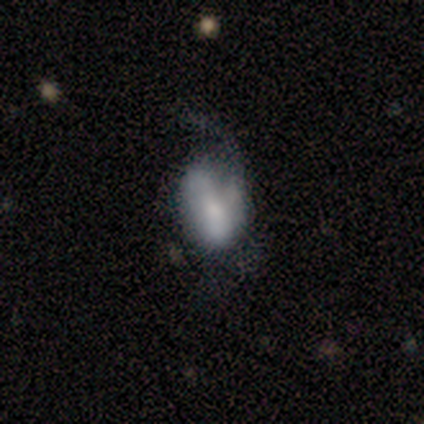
Smooth or featured? smooth (100%)
How rounded? in between (75%)
Merging? none (50%, tied with major disturbance)